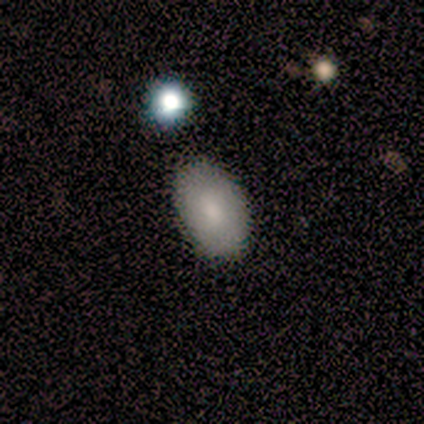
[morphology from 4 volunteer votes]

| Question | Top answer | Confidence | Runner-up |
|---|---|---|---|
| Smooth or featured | featured or disk | 50% | smooth (25%) |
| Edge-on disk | no | 100% | — |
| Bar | weak | 50% | tied: no (50%) |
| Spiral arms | no | 100% | — |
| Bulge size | moderate | 50% | tied: small (50%) |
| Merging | none | 67% | minor disturbance (33%) |